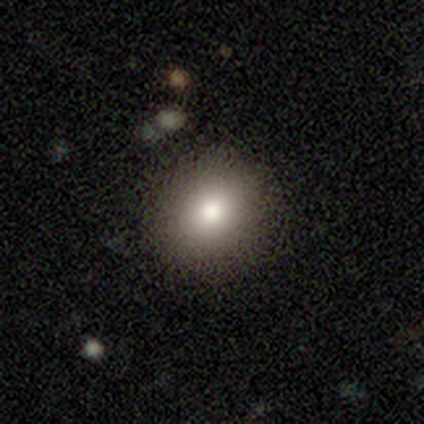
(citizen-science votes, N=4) Smooth or featured?
  - smooth: 75% *
  - star or artifact: 25%
  - featured or disk: 0%
How rounded?
  - in between: 67% *
  - round: 33%
  - cigar-shaped: 0%
Merging?
  - none: 67% *
  - major disturbance: 33%
  - minor disturbance: 0%
  - merger: 0%